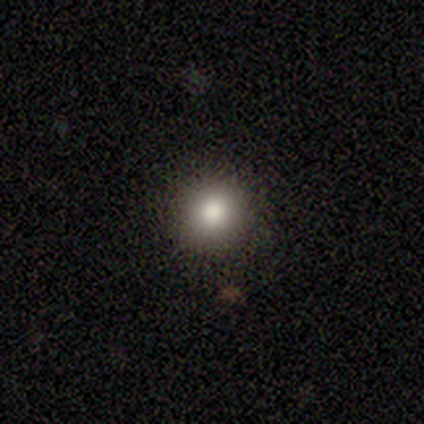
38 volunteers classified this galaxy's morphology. Overall: smooth (87%). How rounded: round (97%). Merging: none (94%).